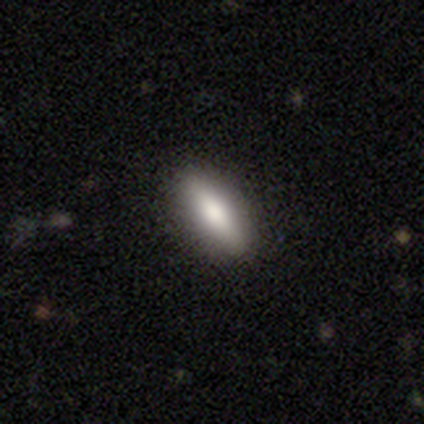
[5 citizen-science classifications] Smooth or featured? smooth (100%)
How rounded? in between (80%)
Merging? none (100%)